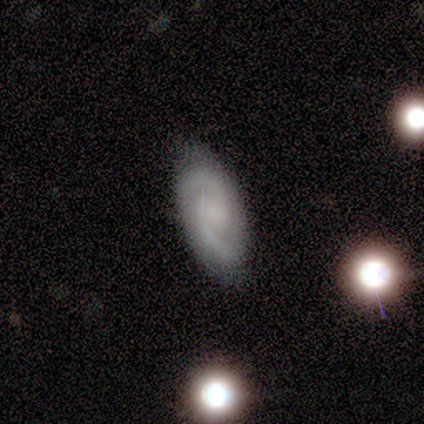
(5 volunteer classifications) Volunteers were most divided on "bulge size" (2-way tie): small: 40%, none: 40%, moderate: 20%, dominant: 0%, large: 0%. More confident: smooth or featured — featured or disk (100%); edge-on disk — no (100%); spiral arms — yes (100%); spiral arm count — 2 (80%); bar — weak (60%); spiral winding — medium (60%); merging — none (60%).